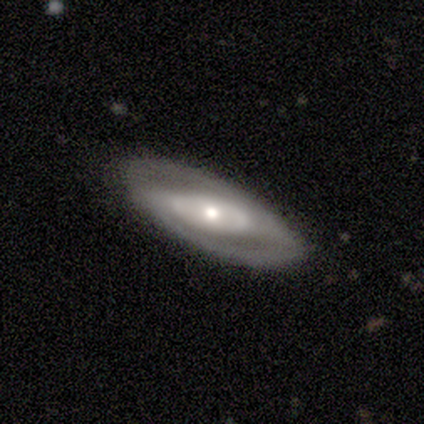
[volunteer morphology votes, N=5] A featured or disk galaxy (60%) viewed edge-on (67%) with a rounded central bulge (100%). Merging: none (100%).